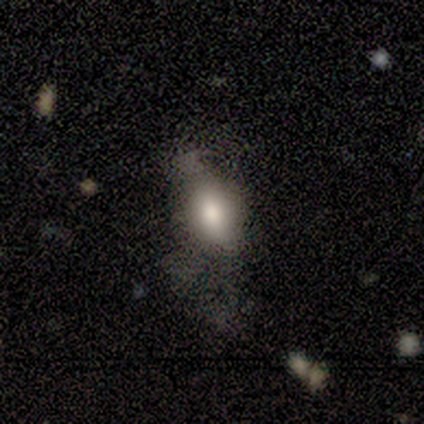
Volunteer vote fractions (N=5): Volunteers were most divided on "smooth or featured": smooth: 60%, star or artifact: 40%, featured or disk: 0%. More confident: how rounded — in between (100%); merging — minor disturbance (67%).